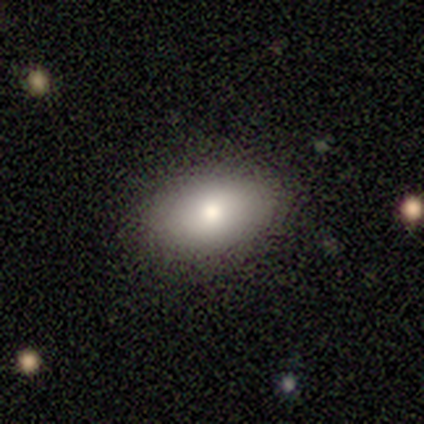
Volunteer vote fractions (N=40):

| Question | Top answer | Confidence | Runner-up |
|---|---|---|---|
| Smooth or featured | smooth | 80% | featured or disk (18%) |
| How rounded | in between | 94% | round (6%) |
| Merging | none | 90% | minor disturbance (10%) |